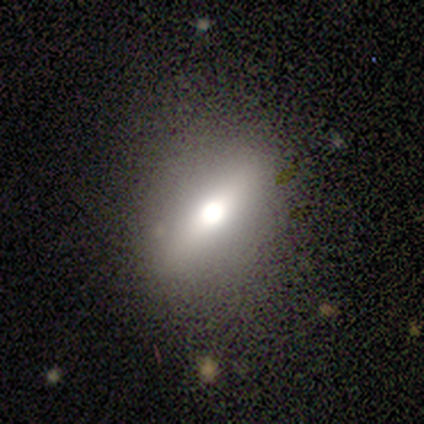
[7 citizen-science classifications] This is marginally a smooth galaxy (43%, tied with featured or disk). How rounded: likely round (67%). Merging: likely none (67%).